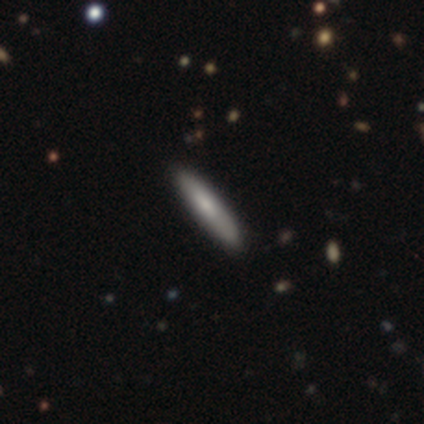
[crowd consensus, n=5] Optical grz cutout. It shows a smooth galaxy with no disk features (100%) that is cigar-shaped (100%). Merging: none (80%).